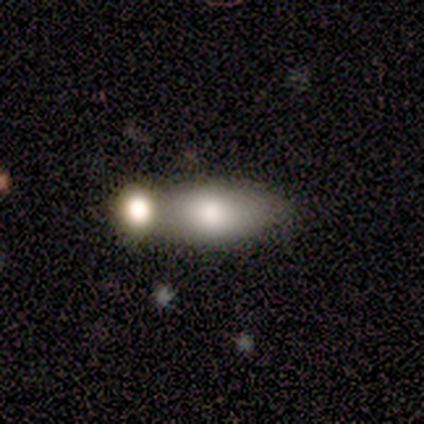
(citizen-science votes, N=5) This appears to be a smooth galaxy with no disk features (80%) that is in between round and cigar-shaped (75%). Merging: merger (60%).